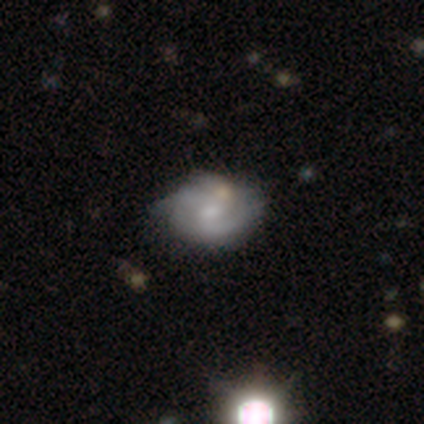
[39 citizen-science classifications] Q: Smooth or featured?
A: featured or disk (85%); runner-up: smooth (15%)
Q: Edge-on disk?
A: no (97%); runner-up: yes (3%)
Q: Bar?
A: no (56%); runner-up: weak (41%)
Q: Spiral arms?
A: yes (81%); runner-up: no (19%)
Q: Spiral winding?
A: tight (46%); runner-up: loose (31%)
Q: Spiral arm count?
A: 2 (69%); runner-up: 1 (12%)
Q: Bulge size?
A: small (53%); runner-up: moderate (31%)
Q: Merging?
A: none (26%); runner-up: merger (23%)